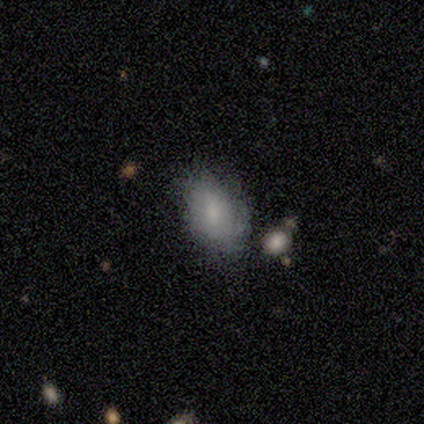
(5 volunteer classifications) This appears to be a smooth galaxy with no disk features (60%) that is in between round and cigar-shaped (100%). Merging: none (100%).